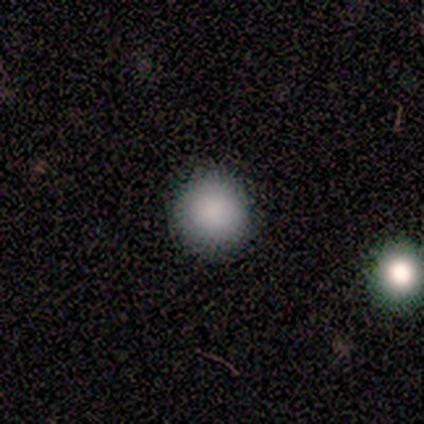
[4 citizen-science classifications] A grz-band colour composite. It shows a smooth galaxy with no disk features (75%) that is round (100%). Merging: none (67%).